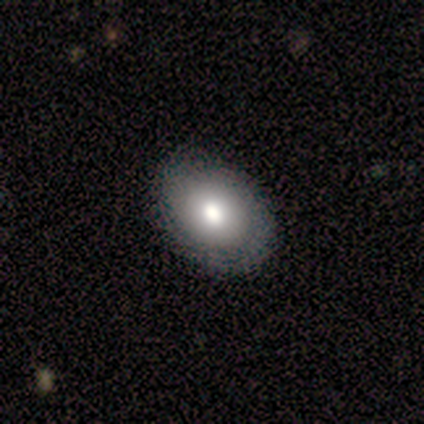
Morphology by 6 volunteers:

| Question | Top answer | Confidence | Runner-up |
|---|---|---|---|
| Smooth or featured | smooth | 100% | — |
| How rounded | round | 50% | tied: in between (50%) |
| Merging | none | 100% | — |